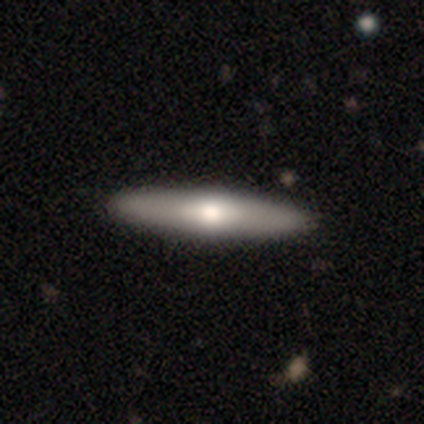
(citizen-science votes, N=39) Morphology: type=smooth (54%); roundness=cigar-shaped (67%); merging=none (89%).